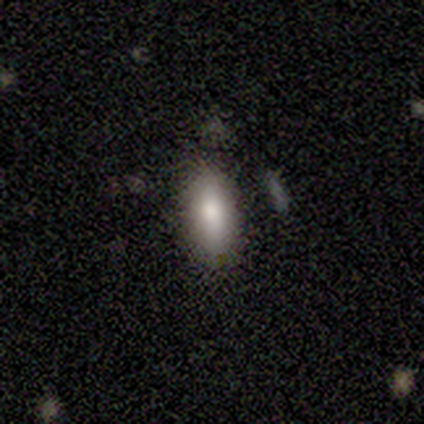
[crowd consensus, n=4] Smooth or featured? smooth (100%)
How rounded? in between (75%)
Merging? none (75%)